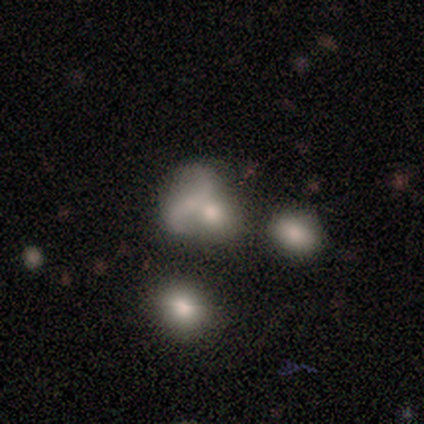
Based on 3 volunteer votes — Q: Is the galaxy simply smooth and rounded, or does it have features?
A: smooth — 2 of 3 (67%).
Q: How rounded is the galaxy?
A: round — 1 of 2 (50%, tied with in between).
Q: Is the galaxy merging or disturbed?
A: none — 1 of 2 (50%, tied with major disturbance).